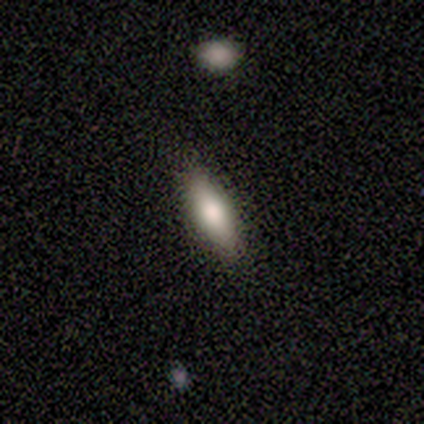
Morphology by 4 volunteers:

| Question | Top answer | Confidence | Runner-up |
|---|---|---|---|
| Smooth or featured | smooth | 100% | — |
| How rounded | in between | 50% | tied: cigar-shaped (50%) |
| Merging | none | 100% | — |